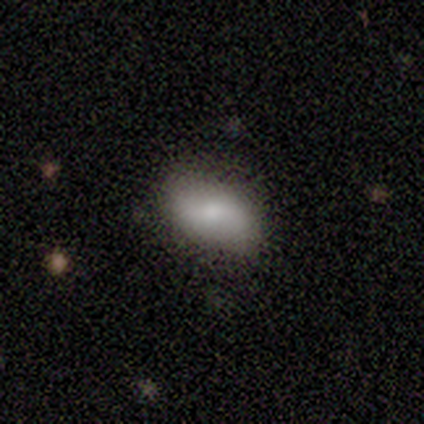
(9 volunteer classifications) Q: Smooth or featured?
A: featured or disk (44%); runner-up: star or artifact (33%)
Q: Edge-on disk?
A: no (100%)
Q: Bar?
A: weak (50%); runner-up: strong (25%)
Q: Spiral arms?
A: yes (75%); runner-up: no (25%)
Q: Spiral winding?
A: loose (67%); runner-up: medium (33%)
Q: Spiral arm count?
A: 2 (67%); runner-up: can't tell (33%)
Q: Bulge size?
A: moderate (50%); tied with: small (50%)
Q: Merging?
A: none (100%)